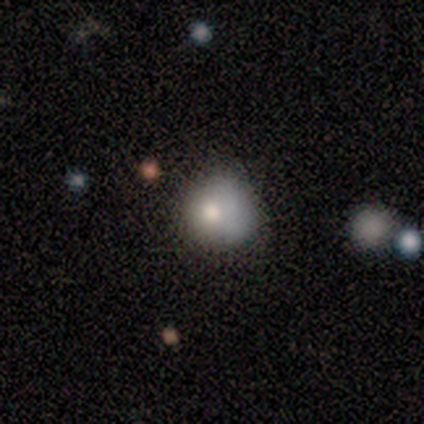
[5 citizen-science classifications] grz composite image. It shows a smooth galaxy with no disk features (100%) that is round (100%). Merging: minor disturbance (60%).